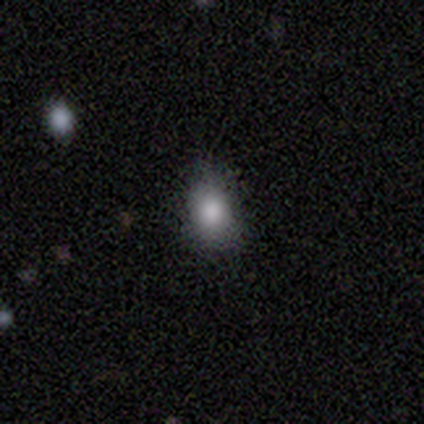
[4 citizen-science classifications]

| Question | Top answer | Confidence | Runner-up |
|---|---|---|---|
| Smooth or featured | smooth | 75% | star or artifact (25%) |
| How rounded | in between | 67% | round (33%) |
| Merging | none | 67% | minor disturbance (33%) |